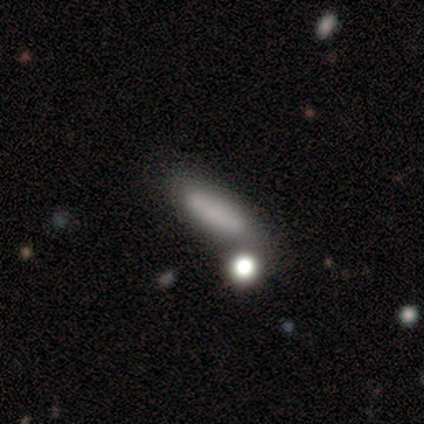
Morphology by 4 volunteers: Smooth or featured: smooth — 50% (featured or disk — 25%)
How rounded: cigar-shaped — 100%
Merging: none — 33% (tied with minor disturbance — 33%; major disturbance — 33%)